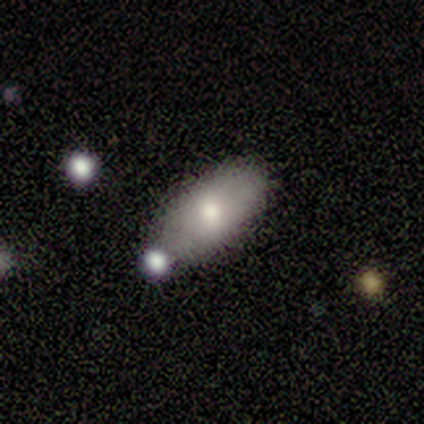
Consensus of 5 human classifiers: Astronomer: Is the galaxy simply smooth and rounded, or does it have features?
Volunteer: smooth — 60% (runner-up: star or artifact, 40%).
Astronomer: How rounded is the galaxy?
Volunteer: in between — 100%.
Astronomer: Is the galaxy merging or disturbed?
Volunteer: none — 67%.